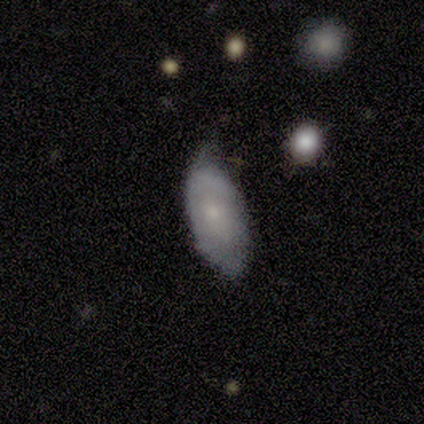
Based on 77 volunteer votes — Morphology: type=smooth (51%); roundness=in between (95%); merging=minor disturbance (37%).